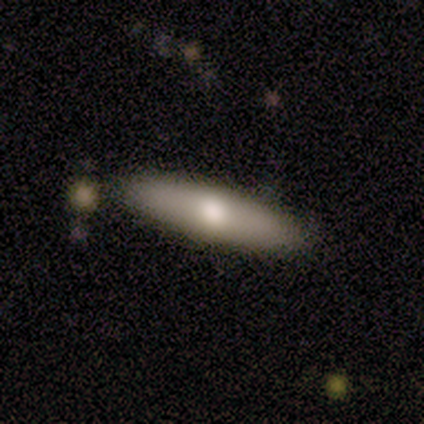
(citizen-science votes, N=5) smooth_or_featured: smooth (p=0.60) [alt: featured or disk p=0.20]
how_rounded: cigar-shaped (p=0.67) [alt: in between p=0.33]
merging: none (p=0.50) [tied with: minor disturbance p=0.50]